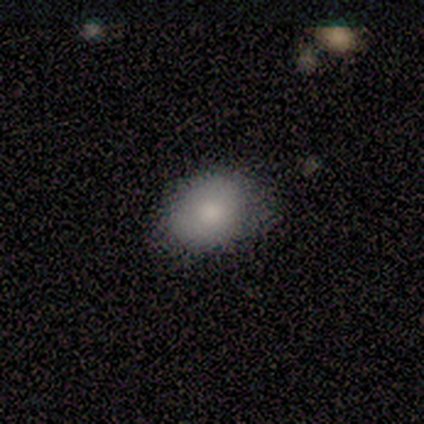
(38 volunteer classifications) Morphology: type=smooth (95%); roundness=in between (78%); merging=none (45%).